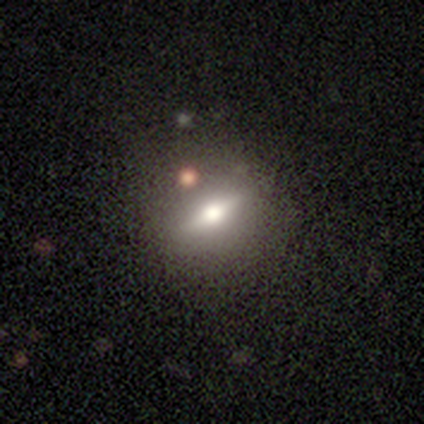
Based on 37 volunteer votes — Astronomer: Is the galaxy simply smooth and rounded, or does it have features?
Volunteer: featured or disk — 62%.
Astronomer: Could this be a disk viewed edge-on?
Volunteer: yes — 74%.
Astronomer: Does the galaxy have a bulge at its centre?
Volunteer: rounded — 100%.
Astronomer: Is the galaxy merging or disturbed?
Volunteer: none — 69%.